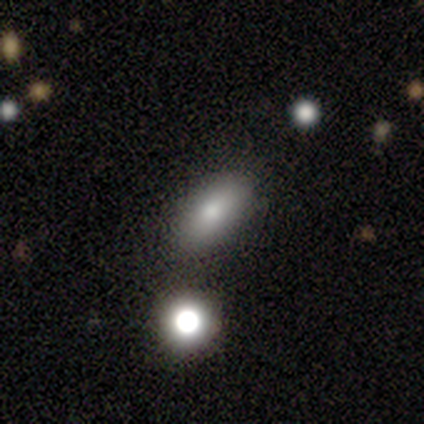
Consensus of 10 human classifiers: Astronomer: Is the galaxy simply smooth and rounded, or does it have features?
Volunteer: smooth — 100%.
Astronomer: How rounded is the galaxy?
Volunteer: in between — 100%.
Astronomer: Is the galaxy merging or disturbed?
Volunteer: none — 70%.